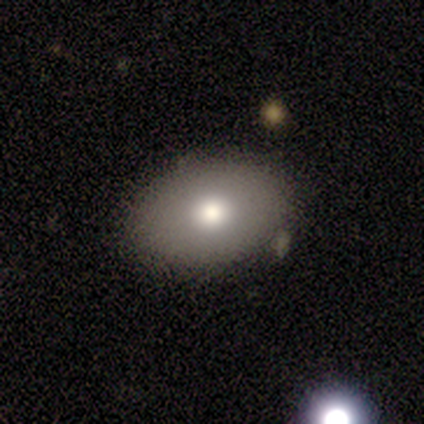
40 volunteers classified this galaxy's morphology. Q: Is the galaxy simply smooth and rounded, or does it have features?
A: smooth — 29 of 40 (72%).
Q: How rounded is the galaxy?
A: in between — 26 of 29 (90%).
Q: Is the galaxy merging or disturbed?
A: none — 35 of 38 (92%).